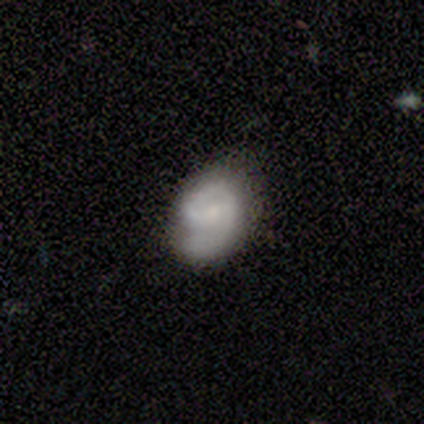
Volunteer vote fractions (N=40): Smooth or featured? 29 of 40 (72%) said featured or disk. Edge-on disk? 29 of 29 (100%) said no. Bar? 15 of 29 (52%) said no. Spiral arms? 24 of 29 (83%) said yes. Spiral winding? 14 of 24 (58%) said tight. Spiral arm count? 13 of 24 (54%) said 1. Bulge size? 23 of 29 (79%) said small. Merging? 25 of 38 (66%) said none.